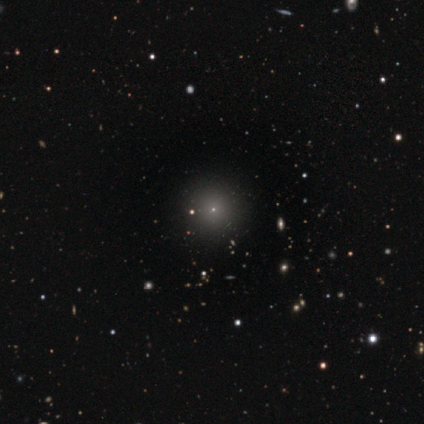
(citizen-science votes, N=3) smooth-or-featured: smooth: 67% | star or artifact: 33% | featured or disk: 0%
  how-rounded: round: 100% | in between: 0% | cigar-shaped: 0%
  merging: none: 100% | minor disturbance: 0% | major disturbance: 0% | merger: 0%